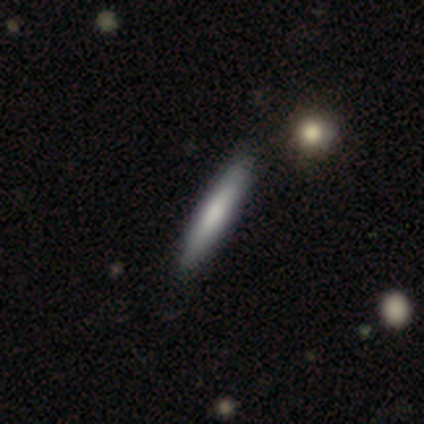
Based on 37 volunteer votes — This is likely a smooth galaxy (65%). How rounded: clearly cigar-shaped (100%). Merging: clearly none (97%).